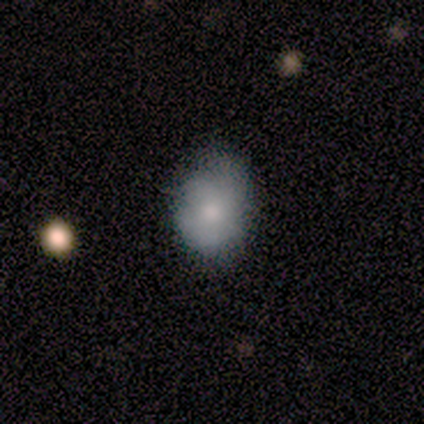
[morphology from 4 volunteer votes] Smooth or featured: smooth — 50% (featured or disk — 25%)
How rounded: in between — 100%
Merging: minor disturbance — 67% (none — 33%)